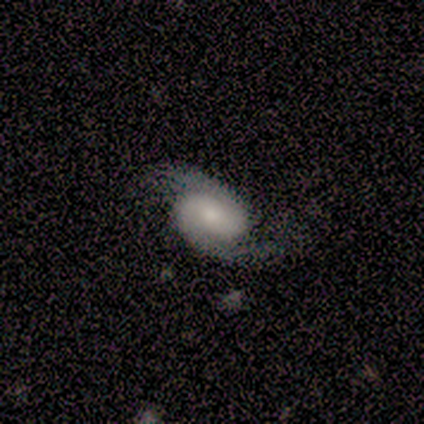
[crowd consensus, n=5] smooth_or_featured: featured or disk (p=1.00)
disk_edge_on: no (p=1.00)
bar: no (p=0.60) [alt: weak p=0.40]
has_spiral_arms: yes (p=1.00)
spiral_winding: medium (p=0.60) [alt: tight p=0.20]
spiral_arm_count: 2 (p=1.00)
bulge_size: moderate (p=0.60) [alt: large p=0.20]
merging: none (p=0.60) [alt: minor disturbance p=0.40]